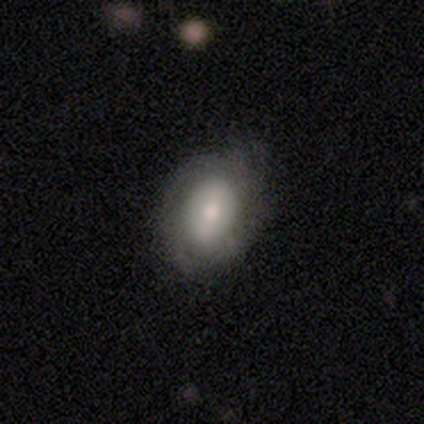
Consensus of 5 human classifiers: Smooth or featured?
  - smooth: 60% *
  - featured or disk: 40%
  - star or artifact: 0%
How rounded?
  - round: 67% *
  - in between: 33%
  - cigar-shaped: 0%
Merging?
  - none: 80% *
  - minor disturbance: 20%
  - major disturbance: 0%
  - merger: 0%